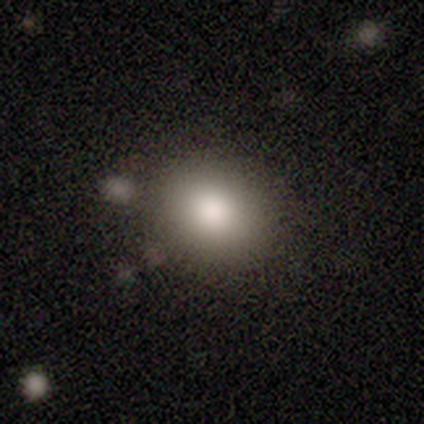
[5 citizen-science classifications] This is likely a smooth galaxy (60%). How rounded: clearly round (100%). Merging: clearly none (100%).